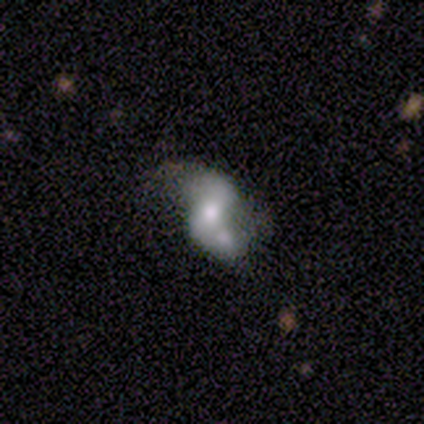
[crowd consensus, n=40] Morphology: type=featured or disk (65%); edge-on=no (100%); bar=weak (46%); spiral arms=yes (69%); winding=loose (78%); arm count=2 (94%); bulge=moderate (77%); merging=merger (42%).